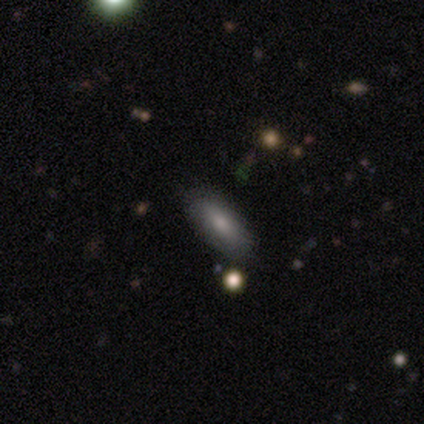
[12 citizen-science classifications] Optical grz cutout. It shows a smooth galaxy with no disk features (75%) that is in between round and cigar-shaped (78%). Merging: none (50%).